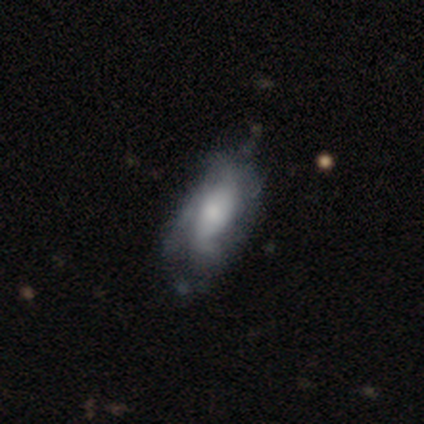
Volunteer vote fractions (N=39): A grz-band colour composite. It shows a featured or disk galaxy (64%) with no bar (62%), 2 (40%) medium (47%) spiral arms (62%) and a moderate central bulge (46%). Merging: none (30%).